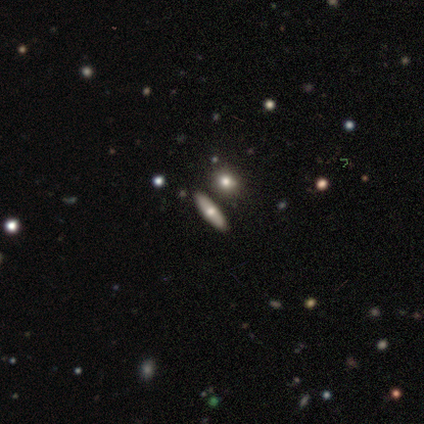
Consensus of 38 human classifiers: Morphology: type=smooth (63%); roundness=in between (46%); merging=none (78%).